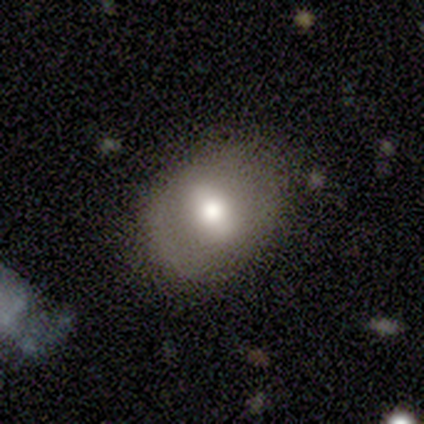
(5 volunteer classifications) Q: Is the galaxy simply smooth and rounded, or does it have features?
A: featured or disk — 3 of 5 (60%).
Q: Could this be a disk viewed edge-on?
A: no — 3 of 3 (100%).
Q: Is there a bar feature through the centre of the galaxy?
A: no — 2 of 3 (67%).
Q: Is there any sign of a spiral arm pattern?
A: no — 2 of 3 (67%).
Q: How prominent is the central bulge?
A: large — 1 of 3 (33%, tied with moderate and small).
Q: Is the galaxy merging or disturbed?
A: none — 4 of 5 (80%).